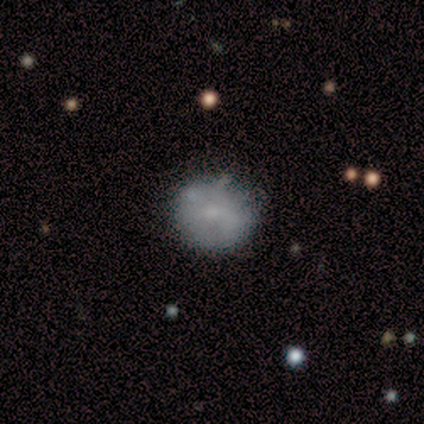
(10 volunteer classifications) Smooth or featured?
  - smooth: 60% *
  - featured or disk: 40%
  - star or artifact: 0%
How rounded?
  - round: 100% *
  - in between: 0%
  - cigar-shaped: 0%
Merging?
  - none: 60% *
  - minor disturbance: 40%
  - major disturbance: 0%
  - merger: 0%